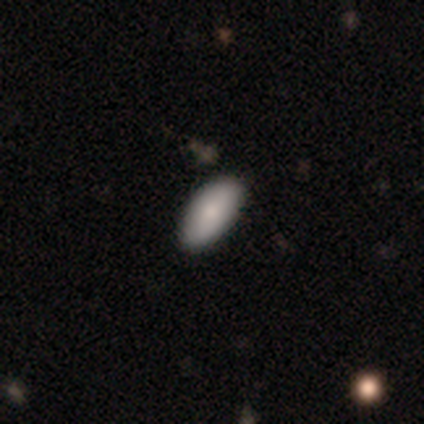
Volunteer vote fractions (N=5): Morphology: type=smooth (60%); roundness=in between (100%); merging=none (100%).